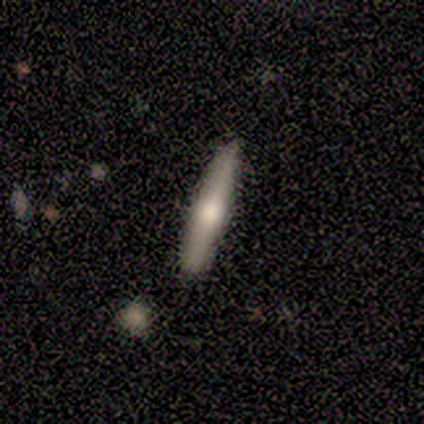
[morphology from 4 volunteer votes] Smooth or featured: featured or disk — 50% (smooth — 25%)
Edge-on disk: yes — 100%
Edge-on bulge: rounded — 100%
Merging: none — 67% (minor disturbance — 33%)